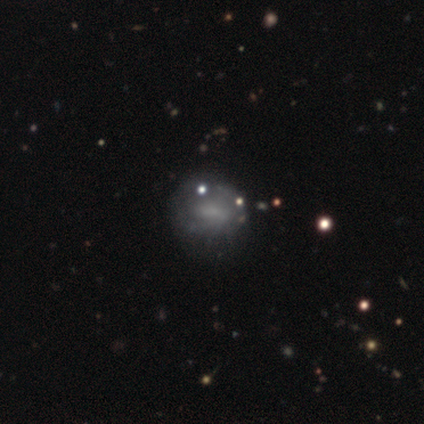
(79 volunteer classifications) Q: Smooth or featured?
A: smooth (47%); runner-up: featured or disk (42%)
Q: How rounded?
A: round (51%); runner-up: in between (46%)
Q: Merging?
A: none (23%); runner-up: minor disturbance (14%)